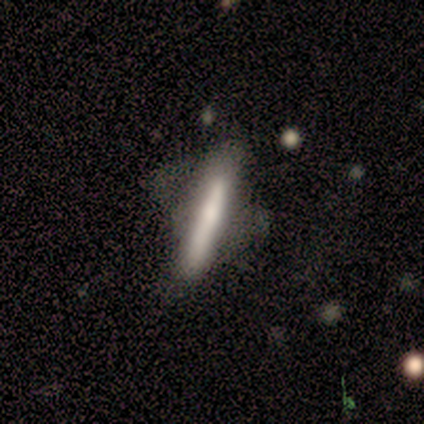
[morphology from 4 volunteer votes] Q: Smooth or featured?
A: smooth (75%); runner-up: featured or disk (25%)
Q: How rounded?
A: cigar-shaped (100%)
Q: Merging?
A: major disturbance (50%); runner-up: none (25%)